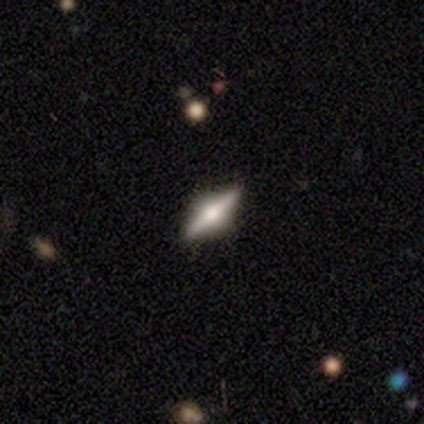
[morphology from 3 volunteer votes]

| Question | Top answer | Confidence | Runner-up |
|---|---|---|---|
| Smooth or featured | featured or disk | 67% | smooth (33%) |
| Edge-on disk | yes | 100% | — |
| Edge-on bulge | rounded | 100% | — |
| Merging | none | 100% | — |